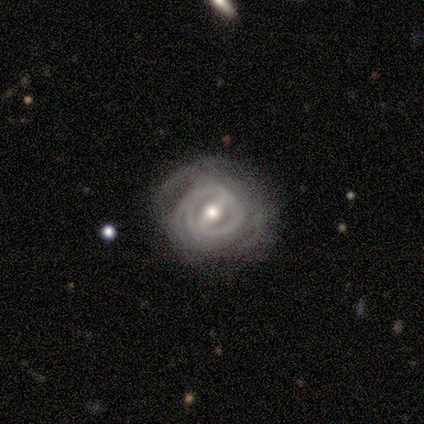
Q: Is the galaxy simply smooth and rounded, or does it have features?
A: featured or disk — 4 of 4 (100%).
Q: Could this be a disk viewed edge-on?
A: no — 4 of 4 (100%).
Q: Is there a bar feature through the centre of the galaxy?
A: strong — 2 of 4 (50%, tied with weak).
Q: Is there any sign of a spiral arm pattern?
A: yes — 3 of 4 (75%).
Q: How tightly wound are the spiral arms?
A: tight — 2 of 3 (67%).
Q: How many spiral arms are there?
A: can't tell — 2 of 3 (67%).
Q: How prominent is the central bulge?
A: moderate — 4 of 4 (100%).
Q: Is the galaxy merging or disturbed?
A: none — 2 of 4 (50%, tied with minor disturbance).